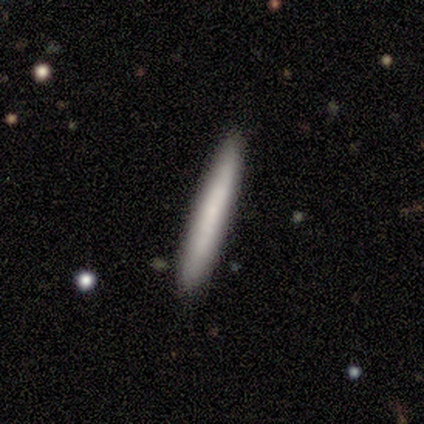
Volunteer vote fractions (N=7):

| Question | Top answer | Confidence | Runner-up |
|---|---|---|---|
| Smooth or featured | featured or disk | 71% | smooth (29%) |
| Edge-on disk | yes | 100% | — |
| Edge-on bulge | none | 60% | boxy (20%) |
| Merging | none | 100% | — |